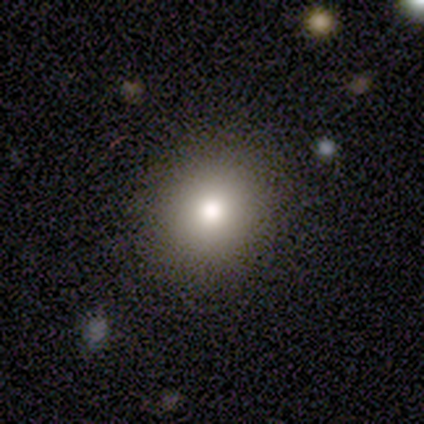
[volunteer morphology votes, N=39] A smooth galaxy with no disk features (62%) that is round (75%). Merging: none (88%).